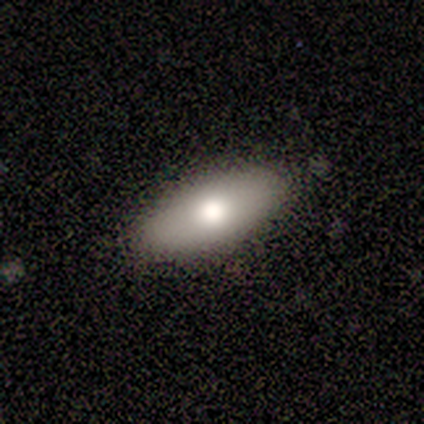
A smooth galaxy with no disk features (60%) that is in between round and cigar-shaped (100%).

Vote fractions:
- Smooth or featured? smooth: 60% / featured or disk: 20% / star or artifact: 20%
- How rounded? in between: 100% / round: 0% / cigar-shaped: 0%
- Merging? none: 100% / minor disturbance: 0% / major disturbance: 0% / merger: 0%